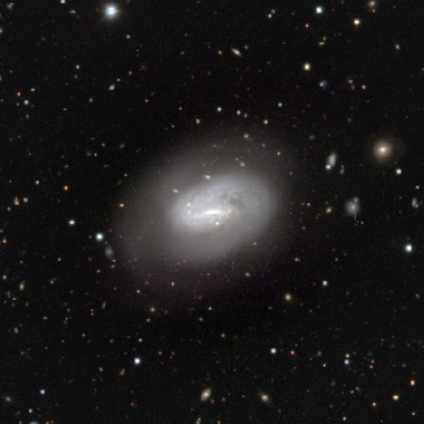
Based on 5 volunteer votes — Overall: featured or disk (80%). Edge-on disk: no (100%). Bar: strong (50%, tied with weak). Spiral arms: yes (100%). Spiral arm count: 1 (75%). Spiral winding: tight (100%). Bulge size: moderate (50%; small 25%). Merging: none (100%).